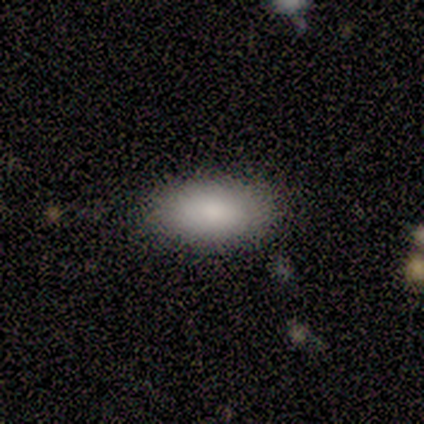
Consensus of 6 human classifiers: A smooth galaxy with no disk features (100%) that is in between round and cigar-shaped (100%). Merging: none (100%).